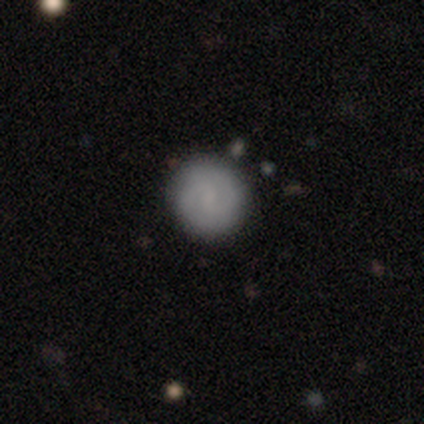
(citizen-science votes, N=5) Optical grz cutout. It shows a featured or disk galaxy (80%) with a weak bar (75%), 2 (100%) tight (50%, tied with medium) spiral arms (100%) and a small central bulge (50%, tied with none). Merging: none (100%).